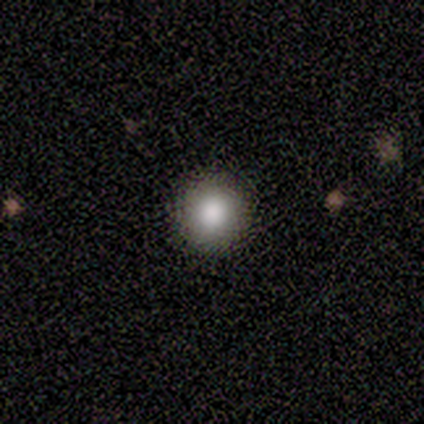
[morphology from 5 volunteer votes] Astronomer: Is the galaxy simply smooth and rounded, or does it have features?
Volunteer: smooth — 80%.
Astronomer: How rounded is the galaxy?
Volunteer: round — 100%.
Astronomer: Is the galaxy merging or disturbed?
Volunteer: none — 100%.